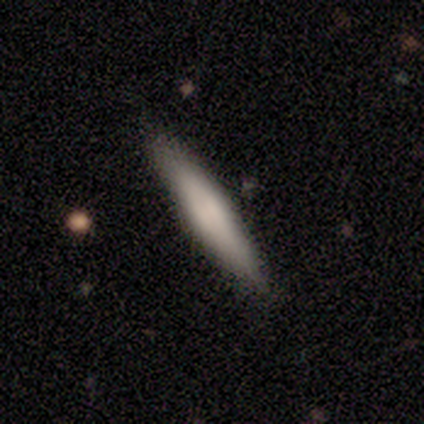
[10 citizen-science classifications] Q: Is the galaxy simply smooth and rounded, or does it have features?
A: smooth — 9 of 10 (90%).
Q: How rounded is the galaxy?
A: cigar-shaped — 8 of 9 (89%).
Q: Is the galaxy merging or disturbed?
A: none — 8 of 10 (80%).